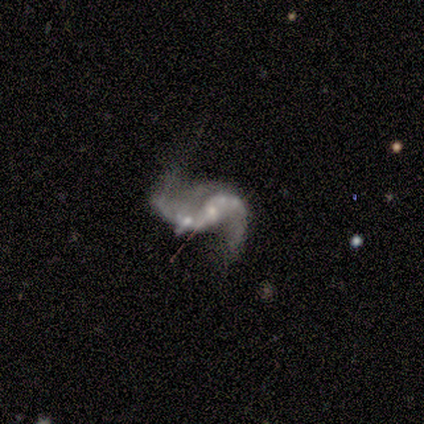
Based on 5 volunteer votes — A featured or disk galaxy (60%) with no bar (67%), 2 (67%) loose (67%) spiral arms (100%) and a small central bulge (67%).

Vote fractions:
- Smooth or featured? featured or disk: 60% / smooth: 20% / star or artifact: 20%
- Edge-on disk? no: 100% / yes: 0%
- Bar? no: 67% / weak: 33% / strong: 0%
- Spiral arms? yes: 100% / no: 0%
- Spiral winding? loose: 67% / medium: 33% / tight: 0%
- Spiral arm count? 2: 67% / 1: 33% / 3: 0% / 4: 0% / more than 4: 0% / can't tell: 0%
- Bulge size? small: 67% / moderate: 33% / dominant: 0% / large: 0% / none: 0%
- Merging? none: 50% (tied) / merger: 50% (tied) / minor disturbance: 0% / major disturbance: 0%